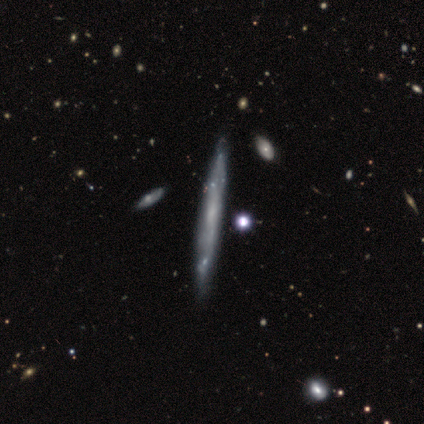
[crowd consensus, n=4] This is clearly a featured or disk galaxy (100%). It is clearly viewed edge-on (100%). Edge-on bulge: clearly none (100%). Merging: clearly none (100%).